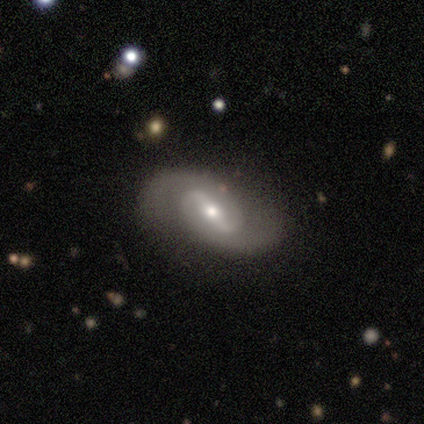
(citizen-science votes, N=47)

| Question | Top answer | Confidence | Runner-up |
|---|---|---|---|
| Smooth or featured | featured or disk | 94% | smooth (4%) |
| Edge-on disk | no | 93% | yes (7%) |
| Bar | strong | 63% | weak (29%) |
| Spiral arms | yes | 90% | no (10%) |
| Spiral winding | medium | 51% | tight (27%) |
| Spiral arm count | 2 | 97% | can't tell (3%) |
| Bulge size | moderate | 54% | small (37%) |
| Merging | none | 78% | minor disturbance (20%) |